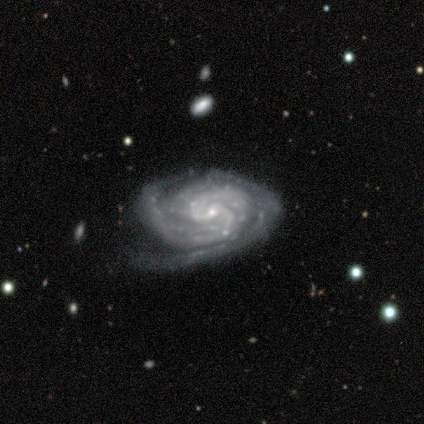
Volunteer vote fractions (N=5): Smooth or featured?
  - featured or disk: 80% *
  - star or artifact: 20%
  - smooth: 0%
Edge-on disk?
  - no: 100% *
  - yes: 0%
Bar?
  - no: 75% *
  - weak: 25%
  - strong: 0%
Spiral arms?
  - yes: 100% *
  - no: 0%
Spiral winding?
  - tight: 100% *
  - medium: 0%
  - loose: 0%
Spiral arm count?
  - 2: 100% *
  - 1: 0%
  - 3: 0%
  - 4: 0%
  - more than 4: 0%
  - can't tell: 0%
Bulge size?
  - small: 100% *
  - dominant: 0%
  - large: 0%
  - moderate: 0%
  - none: 0%
Merging?
  - none: 75% *
  - minor disturbance: 25%
  - major disturbance: 0%
  - merger: 0%